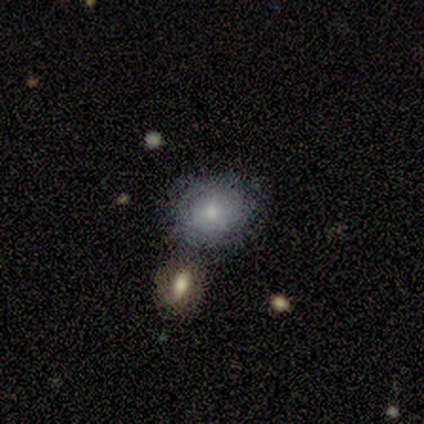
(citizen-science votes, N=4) Smooth or featured?
  - smooth: 75% *
  - featured or disk: 25%
  - star or artifact: 0%
How rounded?
  - round: 100% *
  - in between: 0%
  - cigar-shaped: 0%
Merging?
  - none: 75% *
  - merger: 25%
  - minor disturbance: 0%
  - major disturbance: 0%